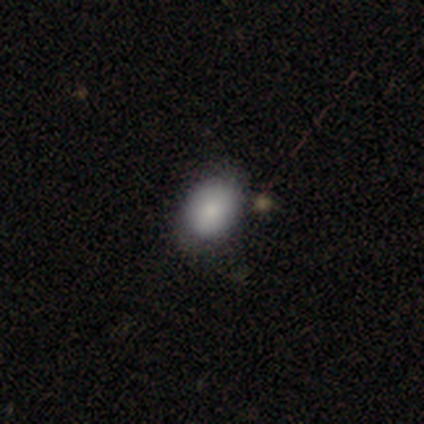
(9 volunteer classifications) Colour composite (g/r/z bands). It shows a smooth galaxy with no disk features (100%) that is in between round and cigar-shaped (78%). Merging: none (78%).